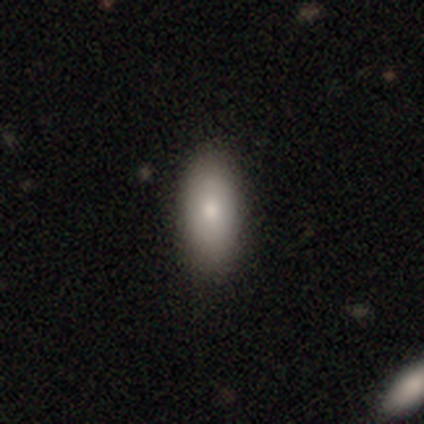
Smooth or featured? 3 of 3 (100%) said smooth. How rounded? 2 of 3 (67%) said in between. Merging? 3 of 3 (100%) said none.